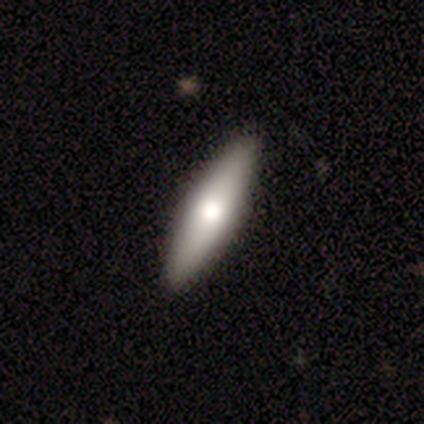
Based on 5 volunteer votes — Smooth or featured?
  - smooth: 60% *
  - featured or disk: 40%
  - star or artifact: 0%
How rounded?
  - cigar-shaped: 67% *
  - in between: 33%
  - round: 0%
Merging?
  - none: 80% *
  - minor disturbance: 20%
  - major disturbance: 0%
  - merger: 0%